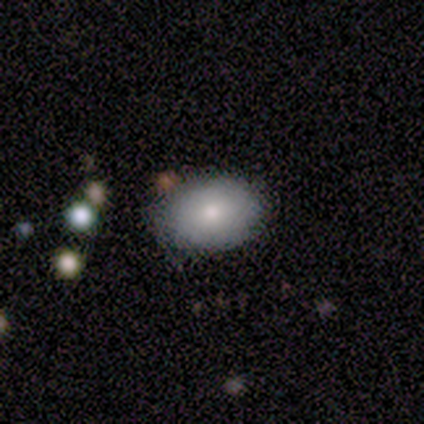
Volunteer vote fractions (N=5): smooth-or-featured: smooth: 80% | featured or disk: 20% | star or artifact: 0%
  how-rounded: in between: 75% | round: 25% | cigar-shaped: 0%
  merging: none: 80% | minor disturbance: 20% | major disturbance: 0% | merger: 0%